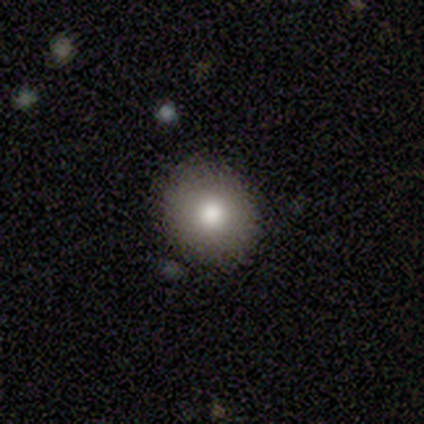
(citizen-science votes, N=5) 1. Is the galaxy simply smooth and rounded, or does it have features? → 80% smooth, 20% featured or disk, 0% star or artifact.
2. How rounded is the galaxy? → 100% round, 0% in between, 0% cigar-shaped.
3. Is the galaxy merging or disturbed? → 60% none, 20% major disturbance, 20% merger, 0% minor disturbance.